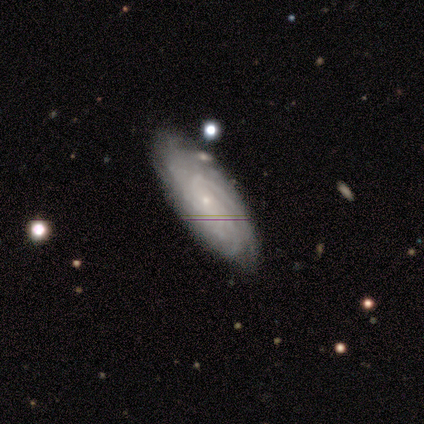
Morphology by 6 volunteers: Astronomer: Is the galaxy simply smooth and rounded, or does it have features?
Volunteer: featured or disk — 83%.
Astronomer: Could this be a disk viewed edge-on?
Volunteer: no — 100%.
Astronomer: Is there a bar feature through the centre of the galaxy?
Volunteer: no — 80%.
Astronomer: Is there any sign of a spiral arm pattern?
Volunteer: yes — 100%.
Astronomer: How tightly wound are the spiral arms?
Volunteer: tight — 80%.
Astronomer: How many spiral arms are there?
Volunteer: can't tell — 60% (runner-up: 3, 40%).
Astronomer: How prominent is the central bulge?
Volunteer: small — 100%.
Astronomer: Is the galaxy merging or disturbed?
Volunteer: none — 60% (runner-up: minor disturbance, 40%).